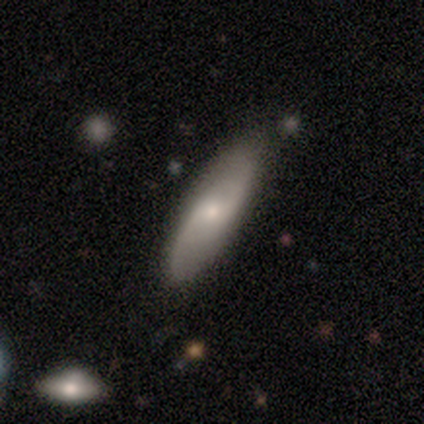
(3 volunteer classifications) Q: Smooth or featured?
A: featured or disk (67%); runner-up: smooth (33%)
Q: Edge-on disk?
A: no (100%)
Q: Bar?
A: weak (50%); tied with: no (50%)
Q: Spiral arms?
A: yes (100%)
Q: Spiral winding?
A: tight (50%); tied with: loose (50%)
Q: Spiral arm count?
A: 2 (100%)
Q: Bulge size?
A: moderate (50%); tied with: small (50%)
Q: Merging?
A: none (100%)